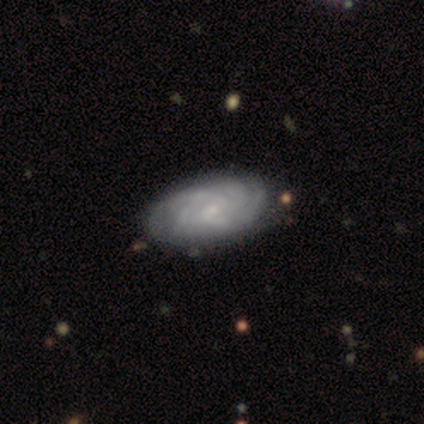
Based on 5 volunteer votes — featured or disk 60%, smooth 40%, star or artifact 0%. Down the decision tree: edge-on disk — no (100%); bar — no (67%); spiral arms — yes (100%); spiral arm count — 2 (33%, tied with 4 and can't tell); spiral winding — tight (100%); bulge size — small (67%); merging — none (80%).